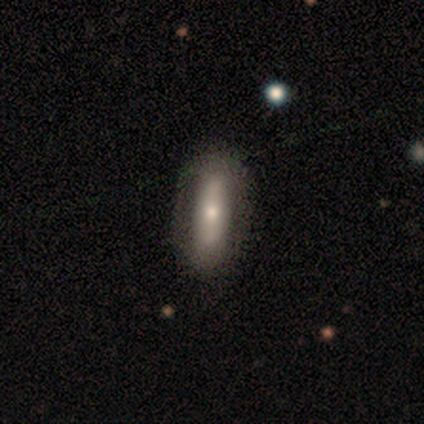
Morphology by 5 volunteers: smooth-or-featured: smooth: 80% | star or artifact: 20% | featured or disk: 0%
  how-rounded: in between: 50% (tied) | cigar-shaped: 50% (tied) | round: 0%
  merging: none: 100% | minor disturbance: 0% | major disturbance: 0% | merger: 0%